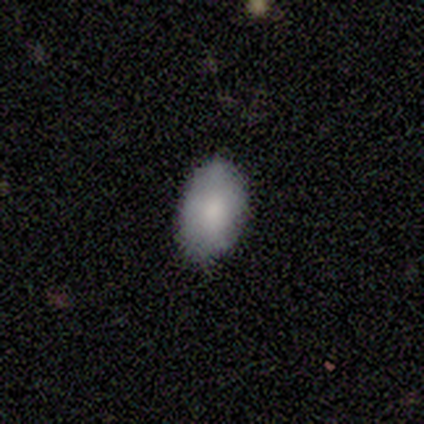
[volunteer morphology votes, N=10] smooth 100%, featured or disk 0%, star or artifact 0%. Down the decision tree: how rounded — in between (90%); merging — none (100%).